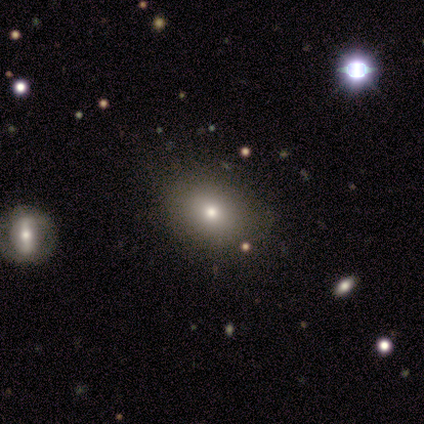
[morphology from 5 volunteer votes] Volunteers were most divided on "how rounded": in between: 67%, round: 33%, cigar-shaped: 0%. More confident: merging — none (100%); smooth or featured — smooth (60%).